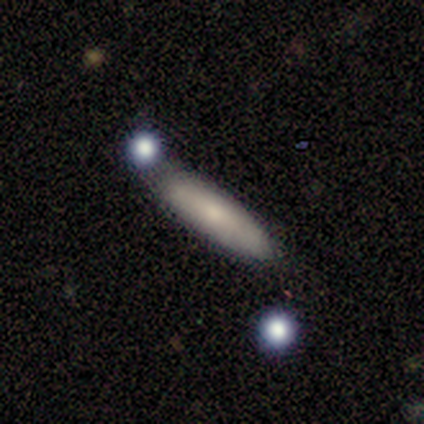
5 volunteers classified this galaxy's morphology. Overall: smooth (60%; featured or disk 40%). How rounded: cigar-shaped (100%). Merging: none (60%; minor disturbance 40%).